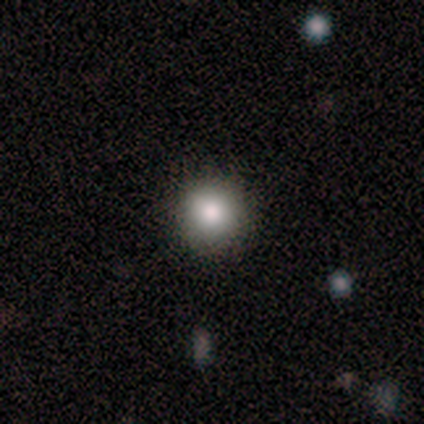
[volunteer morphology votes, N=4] Smooth or featured: smooth — 75% (featured or disk — 25%)
How rounded: round — 100%
Merging: none — 100%